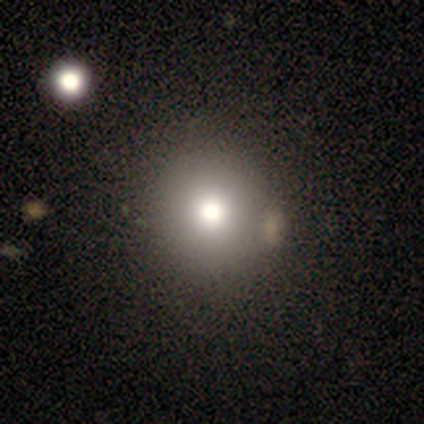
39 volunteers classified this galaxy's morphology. Overall: smooth (82%). How rounded: round (91%). Merging: none (59%).